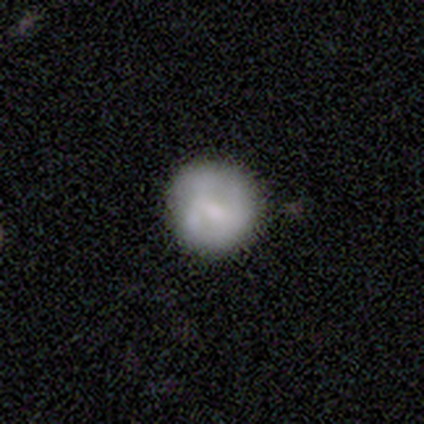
Overall: smooth (80%). How rounded: round (100%). Merging: none (80%).